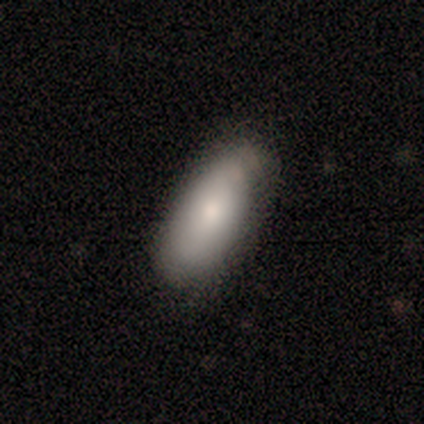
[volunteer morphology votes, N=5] smooth_or_featured: smooth (p=1.00)
how_rounded: in between (p=1.00)
merging: none (p=0.80) [alt: minor disturbance p=0.20]